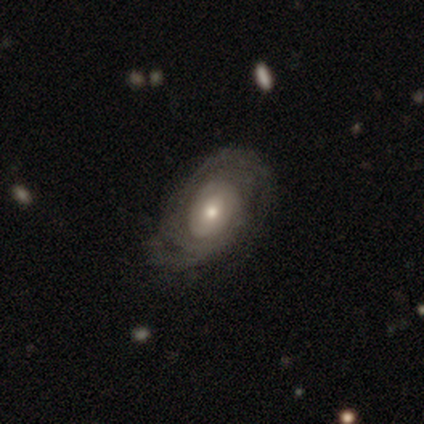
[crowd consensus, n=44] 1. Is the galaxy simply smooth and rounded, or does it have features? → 77% featured or disk, 14% smooth, 9% star or artifact.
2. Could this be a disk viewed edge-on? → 97% no, 3% yes.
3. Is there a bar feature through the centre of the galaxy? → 82% no, 18% weak, 0% strong.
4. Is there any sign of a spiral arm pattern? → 79% yes, 21% no.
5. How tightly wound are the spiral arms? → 77% tight, 23% medium, 0% loose.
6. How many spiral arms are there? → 46% can't tell, 42% 2, 8% 3, 4% 4, 0% 1, 0% more than 4.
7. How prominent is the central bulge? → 61% moderate, 24% small, 12% large, 3% dominant, 0% none.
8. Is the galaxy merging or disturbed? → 50% none, 40% minor disturbance, 10% major disturbance, 0% merger.